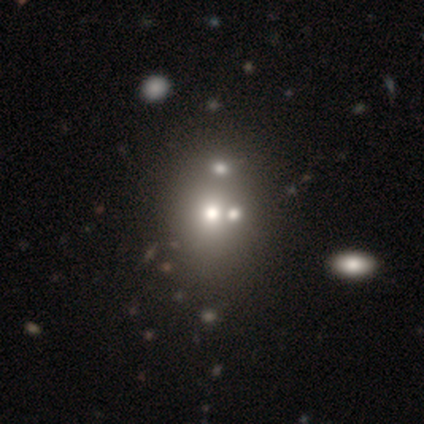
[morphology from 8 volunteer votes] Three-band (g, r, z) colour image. It shows a smooth galaxy with no disk features (62%) that is in between round and cigar-shaped (60%). Merging: none (71%).